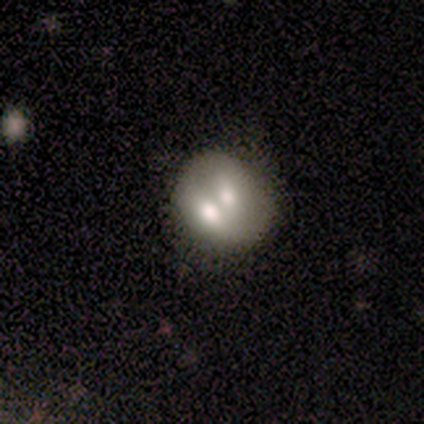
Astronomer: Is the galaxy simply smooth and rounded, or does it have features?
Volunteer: smooth — 61% (runner-up: featured or disk, 39%).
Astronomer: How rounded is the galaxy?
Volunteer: round — 83%.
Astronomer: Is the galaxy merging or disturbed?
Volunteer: merger — 61%.